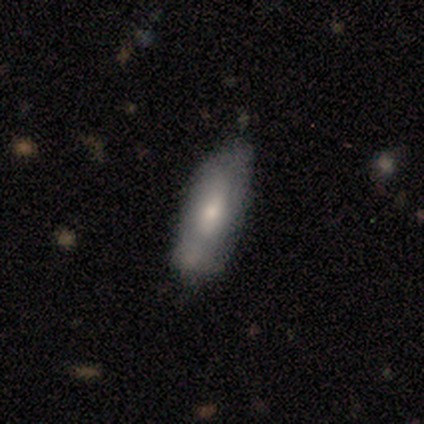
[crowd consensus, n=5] smooth-or-featured: smooth: 60% | featured or disk: 40% | star or artifact: 0%
  how-rounded: cigar-shaped: 67% | in between: 33% | round: 0%
  merging: minor disturbance: 60% | none: 40% | major disturbance: 0% | merger: 0%